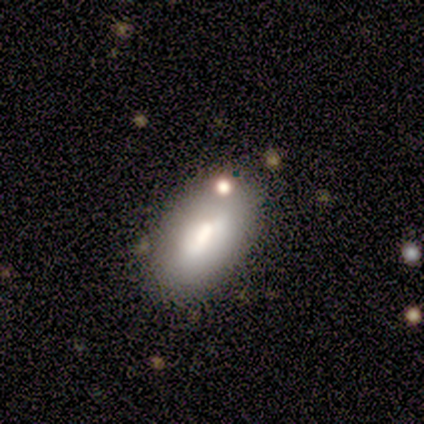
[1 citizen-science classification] Smooth or featured: smooth — 100%
How rounded: in between — 100%
Merging: none — 100%